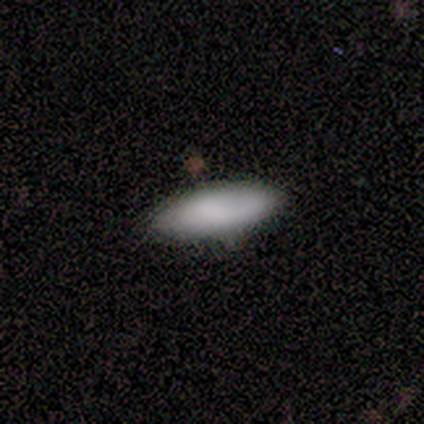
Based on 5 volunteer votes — Volunteers were most divided on "how rounded" (2-way tie): in between: 50%, cigar-shaped: 50%, round: 0%. More confident: smooth or featured — smooth (80%); merging — none (60%).